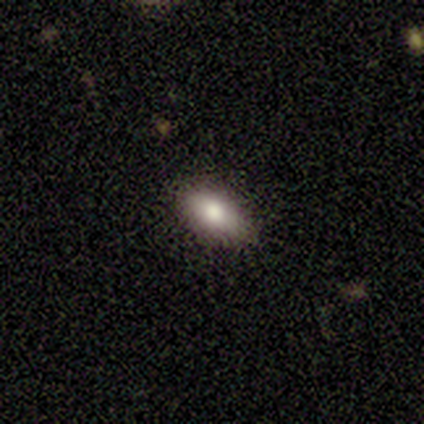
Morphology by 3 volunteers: smooth 67%, featured or disk 33%, star or artifact 0%. Down the decision tree: how rounded — in between (100%); merging — none (100%).